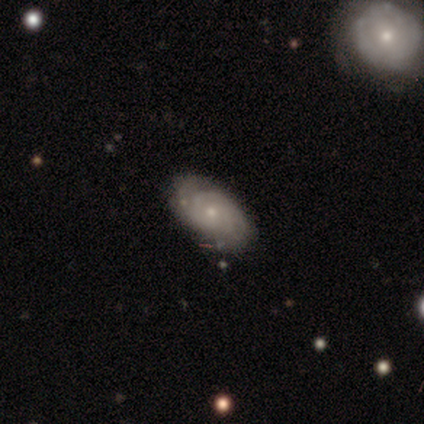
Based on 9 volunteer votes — Smooth or featured?
  - featured or disk: 78% *
  - smooth: 22%
  - star or artifact: 0%
Edge-on disk?
  - no: 100% *
  - yes: 0%
Bar?
  - no: 57% *
  - weak: 29%
  - strong: 14%
Spiral arms?
  - yes: 100% *
  - no: 0%
Spiral winding?
  - tight: 71% *
  - loose: 29%
  - medium: 0%
Spiral arm count?
  - can't tell: 57% *
  - 2: 43%
  - 1: 0%
  - 3: 0%
  - 4: 0%
  - more than 4: 0%
Bulge size?
  - small: 71% *
  - moderate: 29%
  - dominant: 0%
  - large: 0%
  - none: 0%
Merging?
  - none: 89% *
  - major disturbance: 11%
  - minor disturbance: 0%
  - merger: 0%